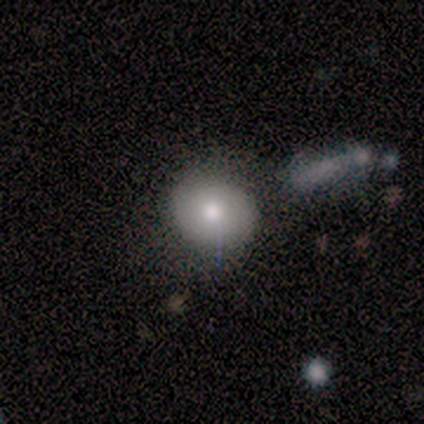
Smooth or featured? 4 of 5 (80%) said smooth. How rounded? 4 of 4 (100%) said round. Merging? 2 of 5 (40%, tied with minor disturbance) said none.